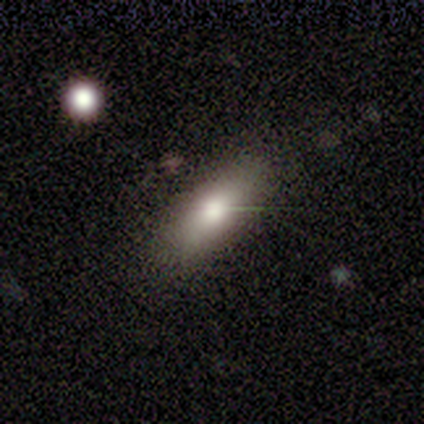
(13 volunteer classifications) Smooth or featured: smooth — 77% (featured or disk — 15%)
How rounded: in between — 50% (cigar-shaped — 40%)
Merging: none — 67% (minor disturbance — 33%)